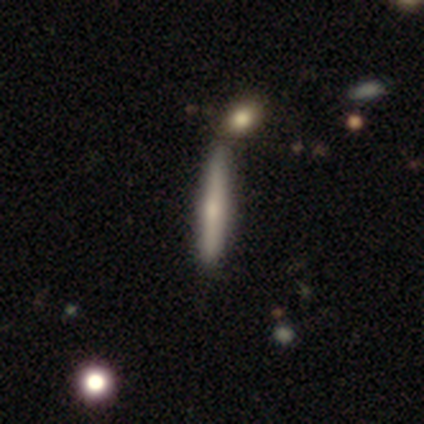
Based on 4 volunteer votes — A smooth galaxy with no disk features (50%, tied with featured or disk) that is cigar-shaped (100%).

Vote fractions:
- Smooth or featured? smooth: 50% (tied) / featured or disk: 50% (tied) / star or artifact: 0%
- How rounded? cigar-shaped: 100% / round: 0% / in between: 0%
- Merging? none: 100% / minor disturbance: 0% / major disturbance: 0% / merger: 0%